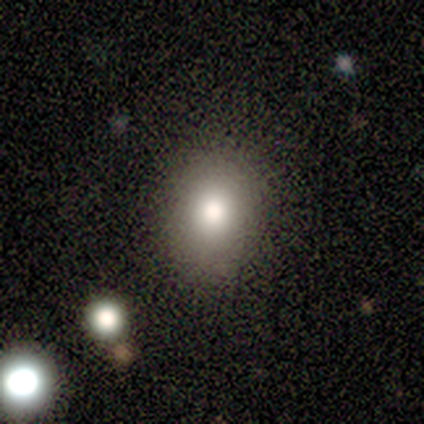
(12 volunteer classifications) smooth_or_featured: smooth (p=0.92) [alt: featured or disk p=0.08]
how_rounded: round (p=0.64) [alt: in between p=0.36]
merging: none (p=0.83) [alt: minor disturbance p=0.17]